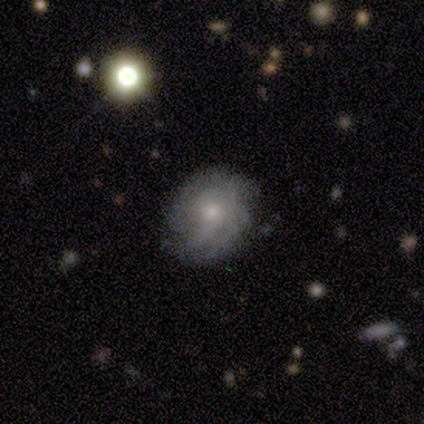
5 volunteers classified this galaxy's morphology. Overall: featured or disk (80%). Edge-on disk: no (100%). Bar: no (100%). Spiral arms: yes (100%). Spiral arm count: 3 (50%, tied with can't tell). Spiral winding: tight (75%). Bulge size: small (75%). Merging: none (100%).